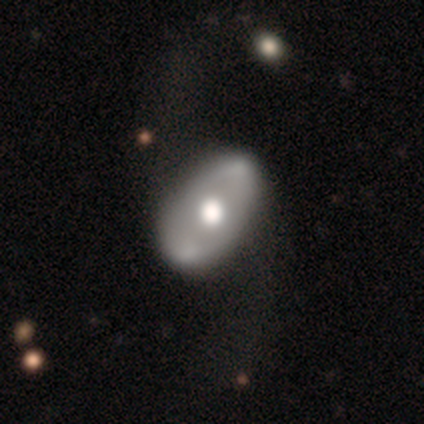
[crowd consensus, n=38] A featured or disk galaxy (66%) with no bar (88%), no spiral arms (60%) and a moderate central bulge (60%).

Vote fractions:
- Smooth or featured? featured or disk: 66% / smooth: 34% / star or artifact: 0%
- Edge-on disk? no: 100% / yes: 0%
- Bar? no: 88% / strong: 12% / weak: 0%
- Spiral arms? no: 60% / yes: 40%
- Bulge size? moderate: 60% / large: 36% / none: 4% / dominant: 0% / small: 0%
- Merging? none: 34% / major disturbance: 16% / minor disturbance: 11% / merger: 5%